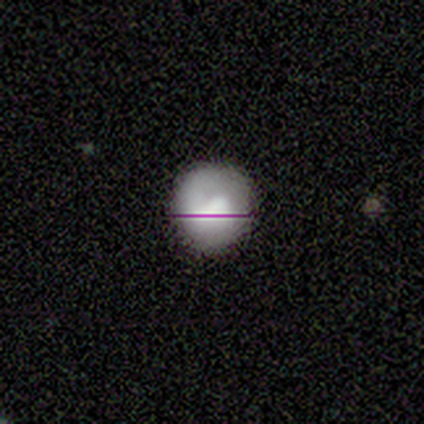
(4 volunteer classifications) This is likely a smooth galaxy (75%). How rounded: clearly round (100%). Merging: likely none (67%).